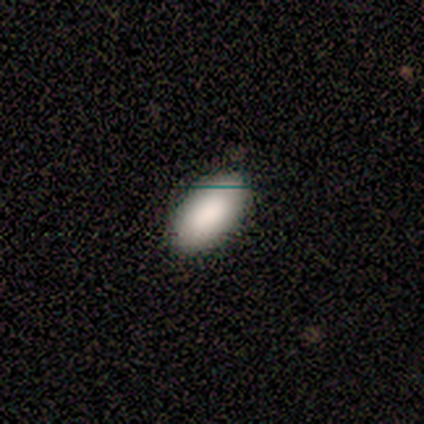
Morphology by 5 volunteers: Consensus on every question: smooth or featured — smooth (100%); how rounded — in between (100%); merging — none (100%).